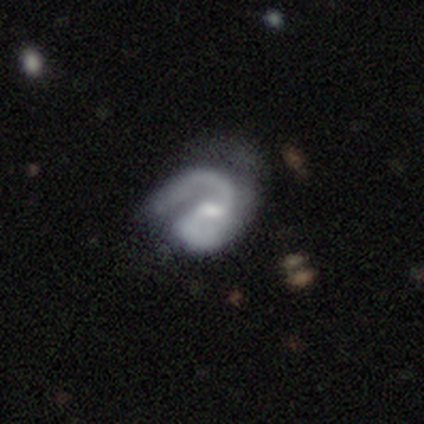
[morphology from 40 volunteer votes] type=featured or disk (90%); edge-on=no (100%); bar=weak (69%); spiral arms=yes (100%); winding=medium (53%); arm count=2 (81%); bulge=moderate (47%, tied with small); merging=none (34%).